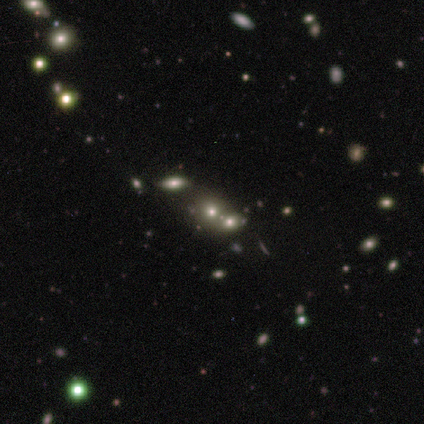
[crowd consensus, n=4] Smooth or featured: star or artifact — 50% (smooth — 25%)